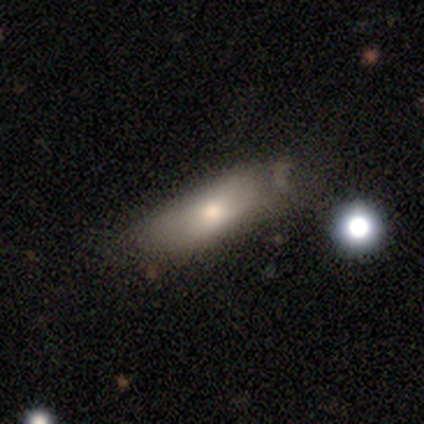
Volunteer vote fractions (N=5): A smooth galaxy with no disk features (80%) that is in between round and cigar-shaped (50%). Merging: none (60%).